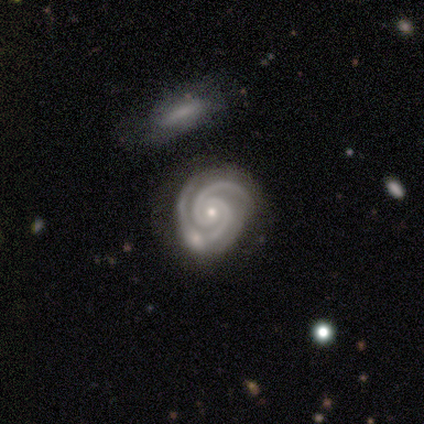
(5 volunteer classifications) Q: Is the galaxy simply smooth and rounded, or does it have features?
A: featured or disk — 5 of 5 (100%).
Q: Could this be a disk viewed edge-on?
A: no — 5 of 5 (100%).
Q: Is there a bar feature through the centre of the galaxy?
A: no — 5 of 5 (100%).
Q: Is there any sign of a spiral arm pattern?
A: yes — 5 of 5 (100%).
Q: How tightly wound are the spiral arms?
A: tight — 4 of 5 (80%).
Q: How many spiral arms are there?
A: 2 — 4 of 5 (80%).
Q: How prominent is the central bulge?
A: small — 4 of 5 (80%).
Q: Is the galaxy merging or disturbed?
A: none — 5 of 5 (100%).